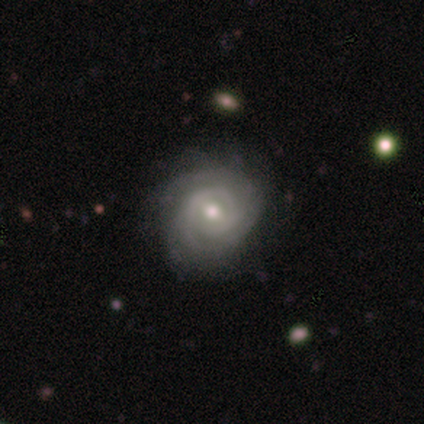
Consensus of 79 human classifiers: Smooth or featured: featured or disk — 86% (smooth — 10%)
Edge-on disk: no — 100%
Bar: weak — 59% (no — 34%)
Spiral arms: yes — 99% (no — 1%)
Spiral winding: tight — 72% (medium — 21%)
Spiral arm count: can't tell — 49% (2 — 24%)
Bulge size: moderate — 68% (small — 22%)
Merging: none — 41% (minor disturbance — 11%)